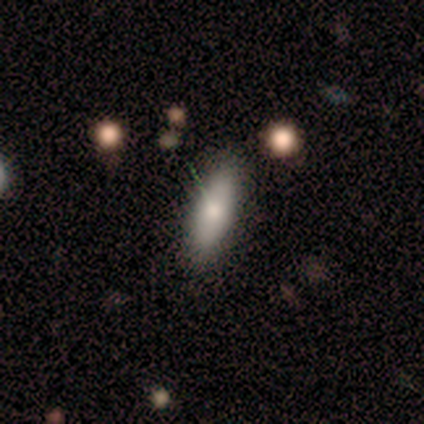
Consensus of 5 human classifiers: A smooth galaxy with no disk features (100%) that is in between round and cigar-shaped (60%).

Vote fractions:
- Smooth or featured? smooth: 100% / featured or disk: 0% / star or artifact: 0%
- How rounded? in between: 60% / cigar-shaped: 40% / round: 0%
- Merging? none: 100% / minor disturbance: 0% / major disturbance: 0% / merger: 0%